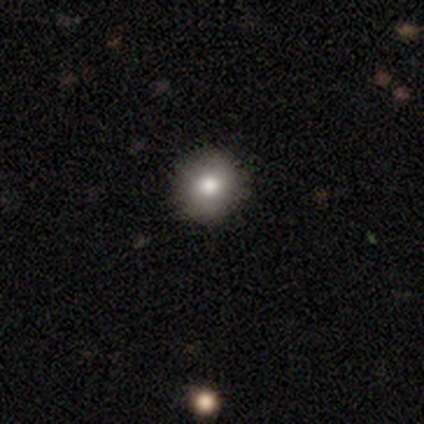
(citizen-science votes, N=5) Volunteers were most divided on "smooth or featured": smooth: 80%, featured or disk: 20%, star or artifact: 0%. More confident: how rounded — round (100%); merging — none (100%).